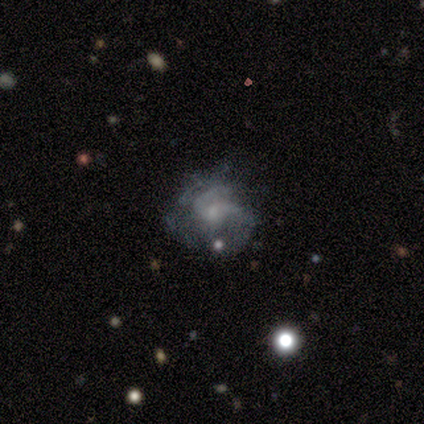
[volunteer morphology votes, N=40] smooth_or_featured: featured or disk (p=0.70) [alt: smooth p=0.17]
disk_edge_on: no (p=1.00)
bar: no (p=0.75) [alt: weak p=0.21]
has_spiral_arms: yes (p=0.75) [alt: no p=0.25]
spiral_winding: medium (p=0.43) [alt: tight p=0.29]
spiral_arm_count: 2 (p=0.43) [alt: 3 p=0.24]
bulge_size: small (p=0.54) [alt: moderate p=0.32]
merging: none (p=0.49) [alt: minor disturbance p=0.26]